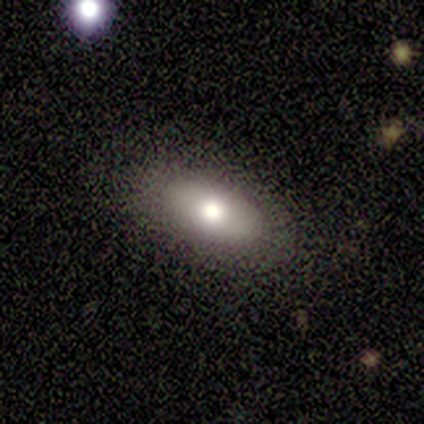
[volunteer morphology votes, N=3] A smooth galaxy with no disk features (100%) that is in between round and cigar-shaped (100%).

Vote fractions:
- Smooth or featured? smooth: 100% / featured or disk: 0% / star or artifact: 0%
- How rounded? in between: 100% / round: 0% / cigar-shaped: 0%
- Merging? none: 100% / minor disturbance: 0% / major disturbance: 0% / merger: 0%